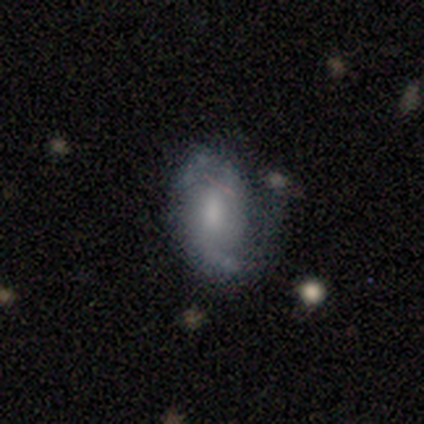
Morphology: type=featured or disk (64%); edge-on=no (100%); bar=no (48%); spiral arms=yes (88%); winding=loose (45%); arm count=2 (45%); bulge=moderate (56%); merging=none (46%).